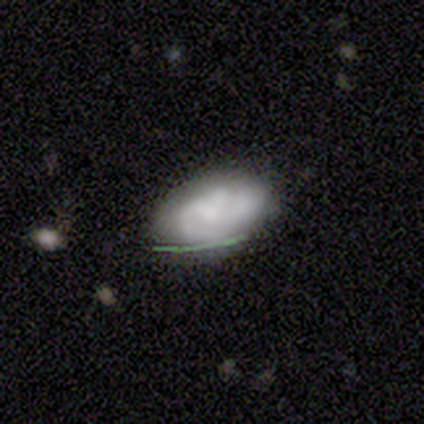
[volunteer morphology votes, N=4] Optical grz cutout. It shows a smooth galaxy with no disk features (50%) that is in between round and cigar-shaped (100%). Merging: none (100%).